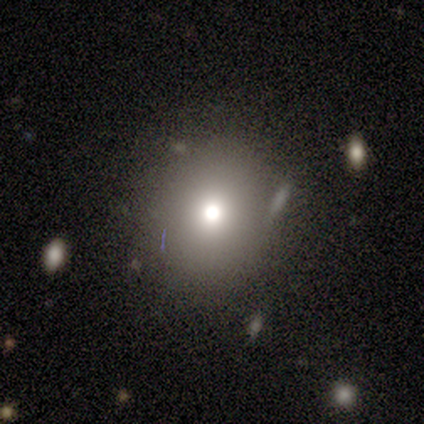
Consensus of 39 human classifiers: smooth-or-featured: smooth: 59% | star or artifact: 28% | featured or disk: 13%
  how-rounded: round: 61% | in between: 39% | cigar-shaped: 0%
  merging: none: 89% | merger: 7% | minor disturbance: 4% | major disturbance: 0%